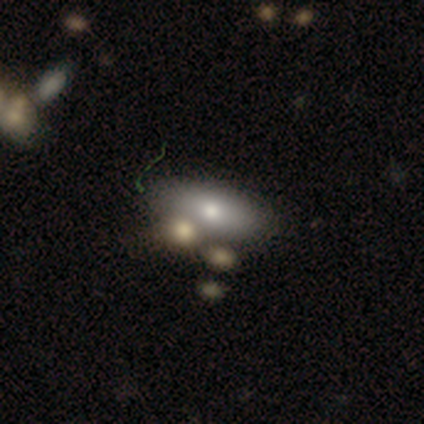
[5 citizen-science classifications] This is clearly a smooth galaxy (100%). How rounded: clearly in between (100%). Merging: likely none (60%).